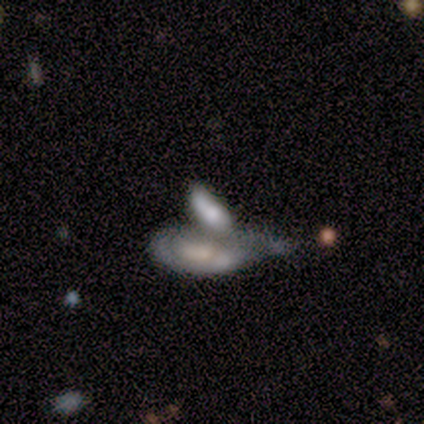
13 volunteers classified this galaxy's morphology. featured or disk 54%, smooth 46%, star or artifact 0%. Down the decision tree: edge-on disk — no (100%); bar — no (71%); spiral arms — no (86%); bulge size — small (57%); merging — merger (38%).